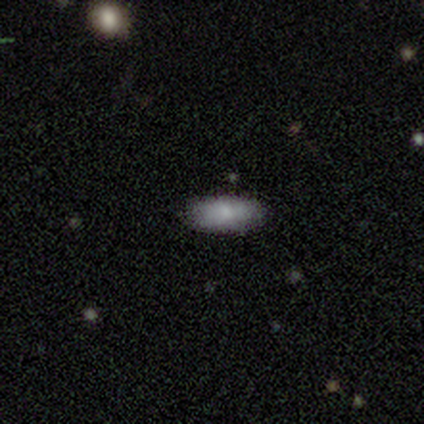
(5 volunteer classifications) A smooth galaxy with no disk features (60%) that is in between round and cigar-shaped (100%).

Vote fractions:
- Smooth or featured? smooth: 60% / featured or disk: 40% / star or artifact: 0%
- How rounded? in between: 100% / round: 0% / cigar-shaped: 0%
- Merging? none: 80% / minor disturbance: 20% / major disturbance: 0% / merger: 0%